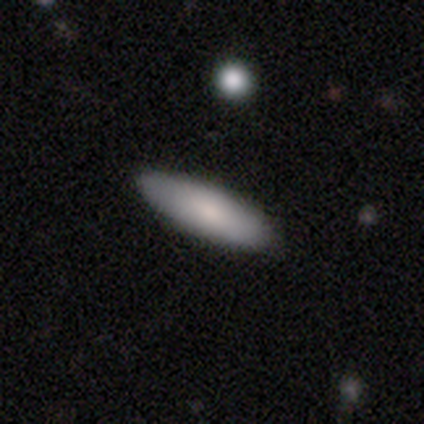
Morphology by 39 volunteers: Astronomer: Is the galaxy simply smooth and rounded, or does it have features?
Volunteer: smooth — 72%.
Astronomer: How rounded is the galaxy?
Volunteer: cigar-shaped — 54% (runner-up: in between, 46%).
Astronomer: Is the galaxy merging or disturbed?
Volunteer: none — 89%.